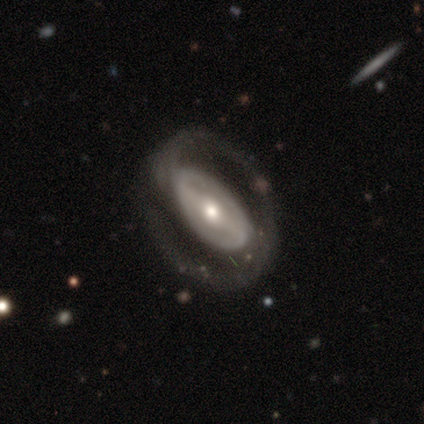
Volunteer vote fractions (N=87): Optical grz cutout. It shows a featured or disk galaxy (84%) with a strong bar (47%), 2 (77%) medium (48%) spiral arms (74%) and a moderate central bulge (70%). Merging: none (66%).